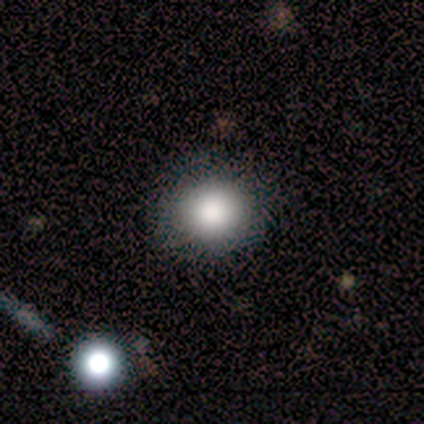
This is clearly a smooth galaxy (88%). How rounded: clearly round (86%). Merging: clearly none (100%).